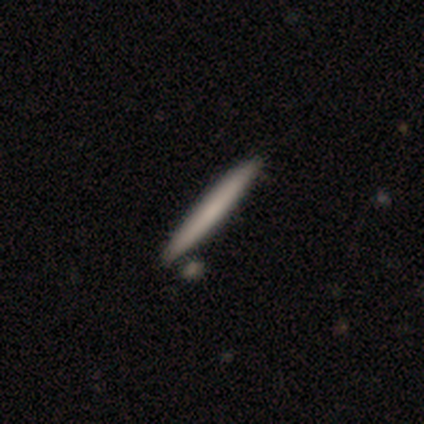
smooth-or-featured: smooth: 60% | featured or disk: 40% | star or artifact: 0%
  how-rounded: cigar-shaped: 100% | round: 0% | in between: 0%
  merging: none: 80% | merger: 20% | minor disturbance: 0% | major disturbance: 0%